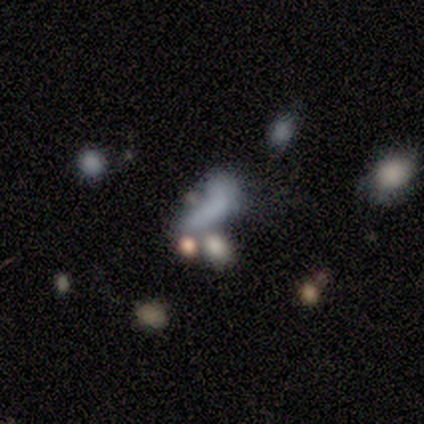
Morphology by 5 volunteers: smooth-or-featured: featured or disk: 60% | smooth: 40% | star or artifact: 0%
  disk-edge-on: no: 100% | yes: 0%
    bar: no: 100% | strong: 0% | weak: 0%
    has-spiral-arms: no: 100% | yes: 0%
    bulge-size: none: 67% | dominant: 33% | large: 0% | moderate: 0% | small: 0%
  merging: merger: 60% | minor disturbance: 40% | none: 0% | major disturbance: 0%